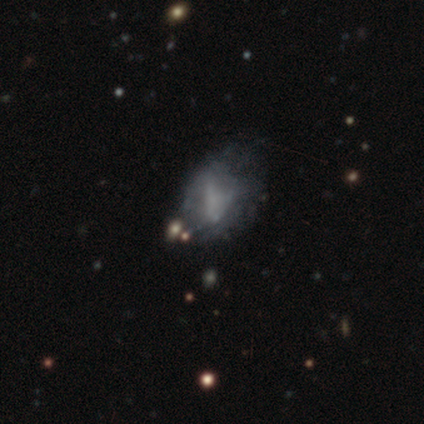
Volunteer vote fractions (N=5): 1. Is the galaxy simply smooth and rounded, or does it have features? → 40% smooth (tied), 40% star or artifact (tied), 20% featured or disk.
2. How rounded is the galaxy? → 100% in between, 0% round, 0% cigar-shaped.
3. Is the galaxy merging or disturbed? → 100% minor disturbance, 0% none, 0% major disturbance, 0% merger.